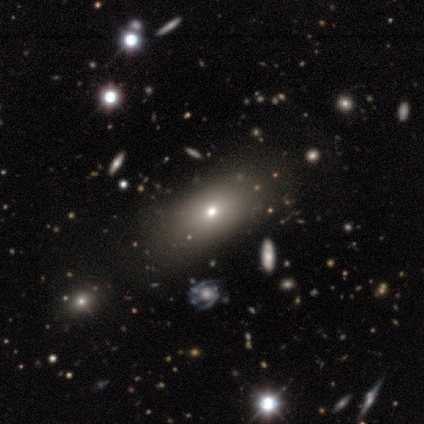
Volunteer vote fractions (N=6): This appears to be a smooth galaxy with no disk features (83%) that is in between round and cigar-shaped (100%). Merging: none (100%).